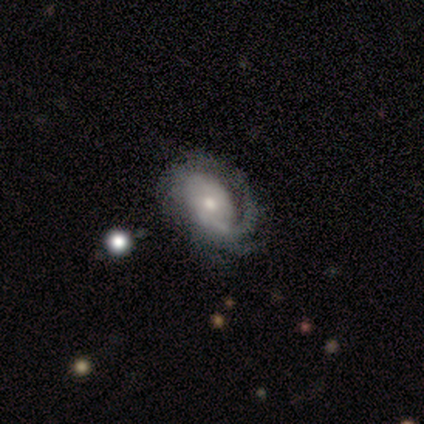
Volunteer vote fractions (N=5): Volunteers were most divided on "spiral winding": tight: 50%, medium: 25%, loose: 25%. More confident: smooth or featured — featured or disk (100%); edge-on disk — no (100%); bar — no (100%); spiral arms — yes (80%); bulge size — moderate (80%); merging — none (60%); spiral arm count — 1 (50%).